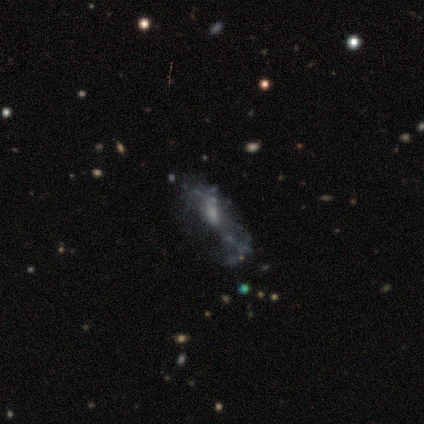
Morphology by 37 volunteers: Smooth or featured?
  - featured or disk: 54% *
  - smooth: 35%
  - star or artifact: 11%
Edge-on disk?
  - no: 100% *
  - yes: 0%
Bar?
  - no: 55% *
  - weak: 40%
  - strong: 5%
Spiral arms?
  - no: 75% *
  - yes: 25%
Bulge size?
  - small: 60% *
  - none: 20%
  - moderate: 15%
  - large: 5%
  - dominant: 0%
Merging?
  - none: 33% *
  - major disturbance: 30%
  - minor disturbance: 21%
  - merger: 15%